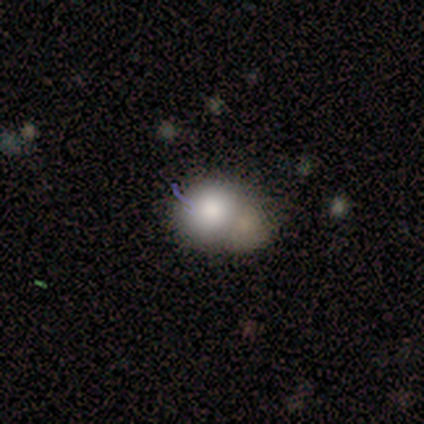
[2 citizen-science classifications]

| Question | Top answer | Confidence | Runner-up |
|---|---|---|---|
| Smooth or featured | smooth | 100% | — |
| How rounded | round | 50% | tied: in between (50%) |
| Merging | none | 50% | tied: minor disturbance (50%) |